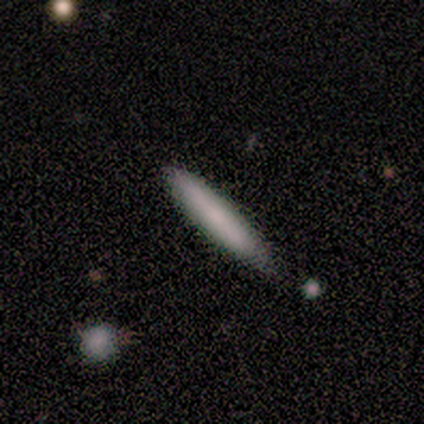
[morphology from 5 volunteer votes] type=smooth (100%); roundness=cigar-shaped (100%); merging=none (100%).